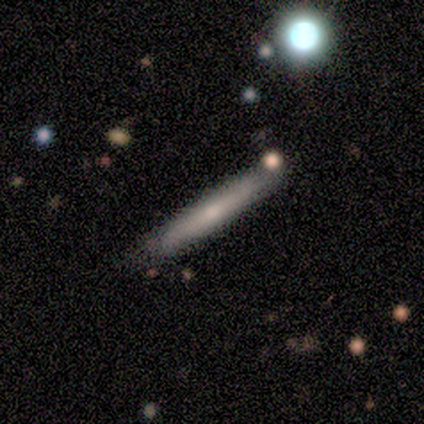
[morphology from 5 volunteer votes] smooth_or_featured: smooth (p=0.80) [alt: featured or disk p=0.20]
how_rounded: cigar-shaped (p=1.00)
merging: none (p=0.60) [alt: minor disturbance p=0.40]